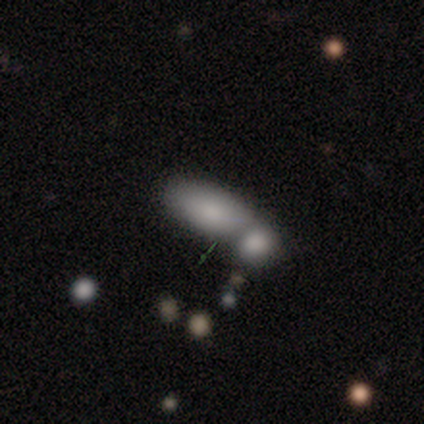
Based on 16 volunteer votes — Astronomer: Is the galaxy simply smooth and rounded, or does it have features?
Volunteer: smooth — 81%.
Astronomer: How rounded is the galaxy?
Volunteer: in between — 85%.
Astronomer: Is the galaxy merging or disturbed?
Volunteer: merger — 79%.